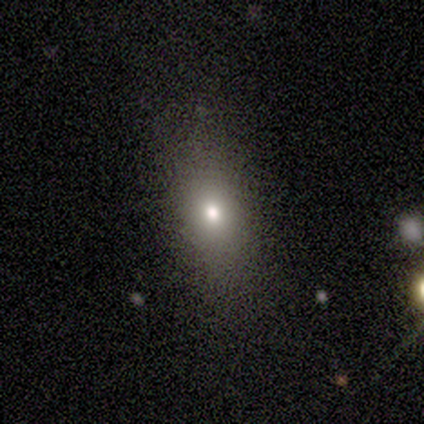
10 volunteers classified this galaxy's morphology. Q: Smooth or featured?
A: smooth (50%); runner-up: featured or disk (30%)
Q: How rounded?
A: in between (80%); runner-up: round (20%)
Q: Merging?
A: none (88%); runner-up: minor disturbance (12%)